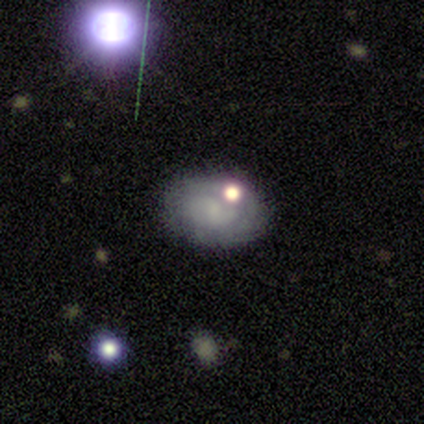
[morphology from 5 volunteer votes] Smooth or featured? 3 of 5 (60%) said smooth. How rounded? 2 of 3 (67%) said in between. Merging? 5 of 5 (100%) said none.